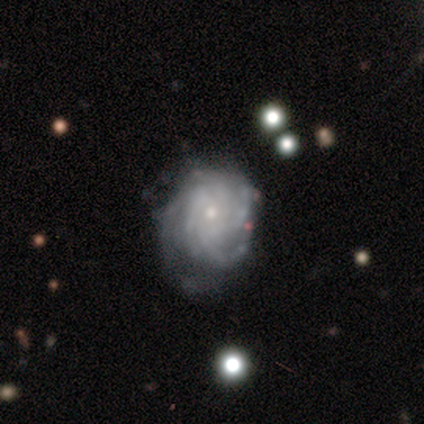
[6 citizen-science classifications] Overall: featured or disk (100%). Edge-on disk: no (100%). Bar: no (83%). Spiral arms: yes (100%). Spiral arm count: 3 (33%, tied with more than 4). Spiral winding: tight (67%). Bulge size: small (83%). Merging: none (67%; minor disturbance 33%).